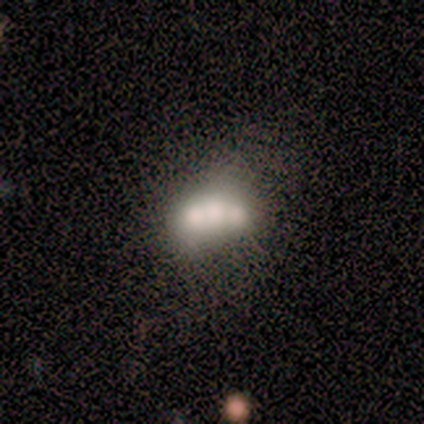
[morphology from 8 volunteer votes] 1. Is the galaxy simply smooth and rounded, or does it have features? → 62% featured or disk, 38% smooth, 0% star or artifact.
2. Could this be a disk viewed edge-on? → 100% no, 0% yes.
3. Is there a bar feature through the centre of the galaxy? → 100% no, 0% strong, 0% weak.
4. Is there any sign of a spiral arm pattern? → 100% no, 0% yes.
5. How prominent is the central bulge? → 40% large (tied), 40% moderate (tied), 20% dominant, 0% small, 0% none.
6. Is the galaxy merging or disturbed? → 38% none, 25% major disturbance, 25% merger, 12% minor disturbance.